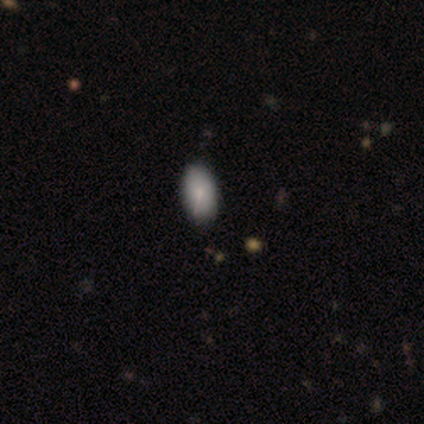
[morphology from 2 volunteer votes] Consensus on every question: smooth or featured — smooth (100%); how rounded — in between (100%); merging — none (100%).